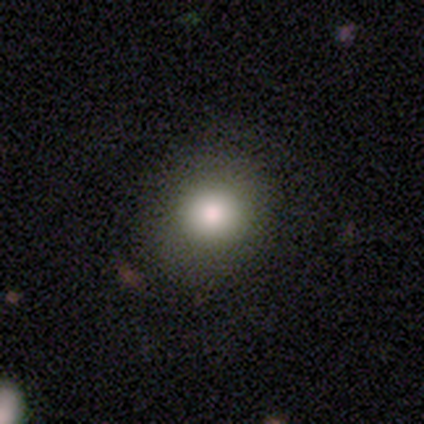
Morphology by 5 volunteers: Smooth or featured? 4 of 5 (80%) said smooth. How rounded? 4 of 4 (100%) said round. Merging? 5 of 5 (100%) said none.